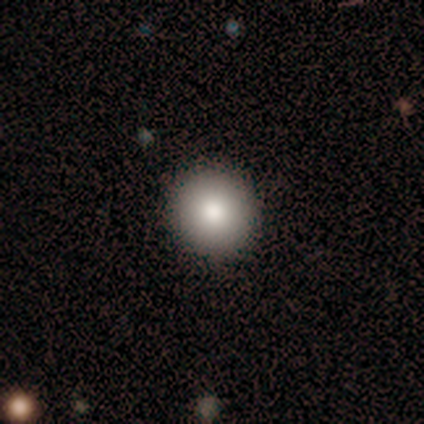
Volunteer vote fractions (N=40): This appears to be a smooth galaxy with no disk features (90%) that is round (89%). Merging: none (89%).